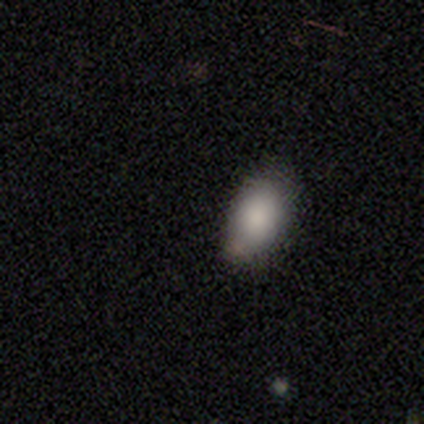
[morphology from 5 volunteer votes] Smooth or featured? smooth (60%)
How rounded? in between (100%)
Merging? none (100%)